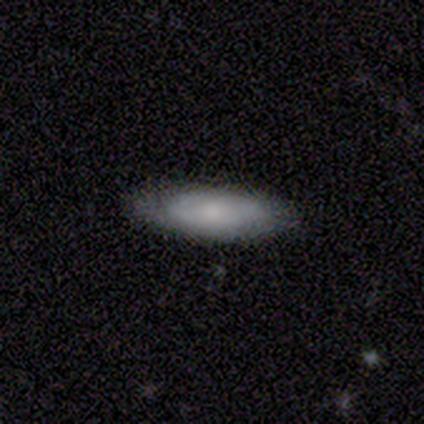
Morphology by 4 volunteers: A smooth galaxy with no disk features (75%) that is cigar-shaped (67%). Merging: none (75%).